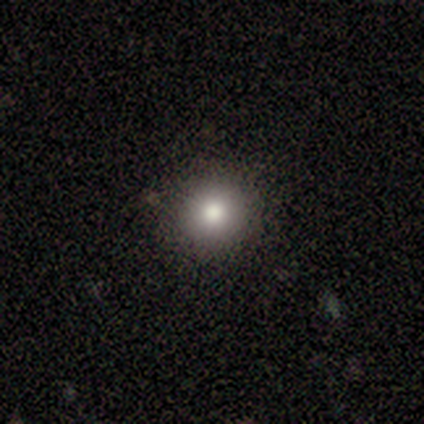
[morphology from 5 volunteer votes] Q: Smooth or featured?
A: smooth (60%); runner-up: star or artifact (40%)
Q: How rounded?
A: round (100%)
Q: Merging?
A: none (100%)